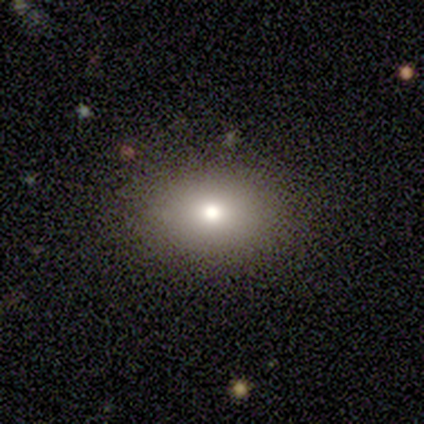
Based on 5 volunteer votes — Morphology: type=smooth (80%); roundness=round (50%, tied with in between); merging=minor disturbance (75%).